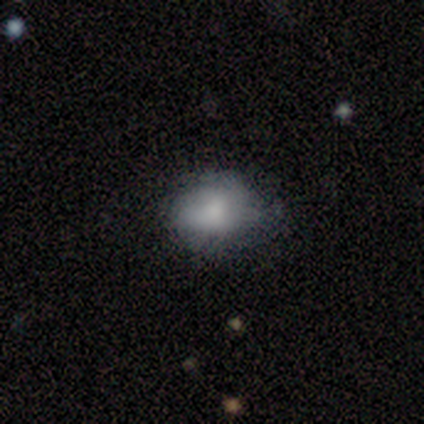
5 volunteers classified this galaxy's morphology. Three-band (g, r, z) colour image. It shows a smooth galaxy with no disk features (80%) that is in between round and cigar-shaped (75%). Merging: none (40%, tied with minor disturbance).